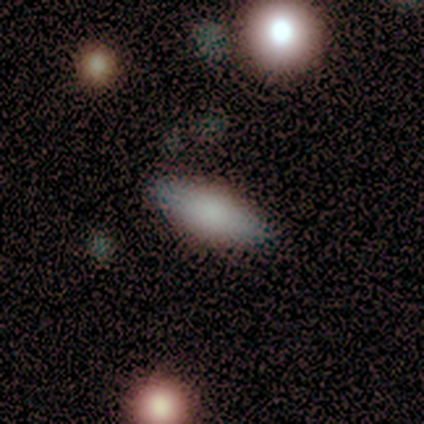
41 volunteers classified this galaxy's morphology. This is likely a smooth galaxy (78%). How rounded: likely in between (72%). Merging: clearly none (82%).